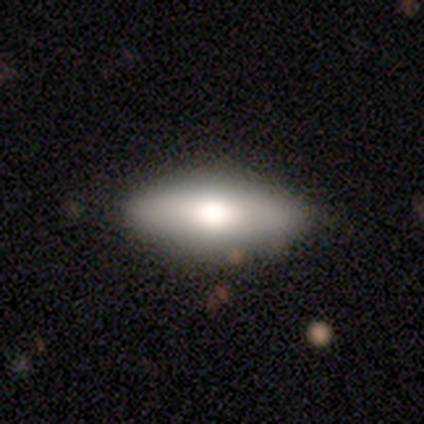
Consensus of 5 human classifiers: A featured or disk galaxy (60%) viewed edge-on (67%) with a boxy central bulge (50%, tied with rounded). Merging: none (80%).